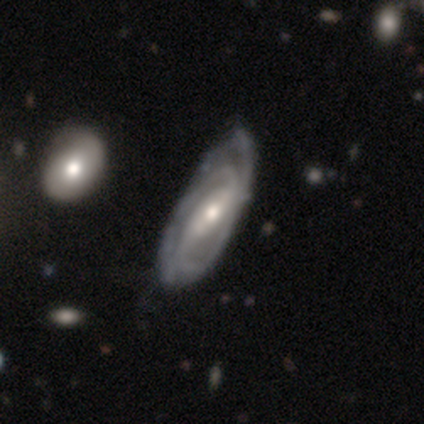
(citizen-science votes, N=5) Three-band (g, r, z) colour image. It shows a featured or disk galaxy (100%) with a strong bar (60%), 2 (80%) medium (80%) spiral arms (100%) and a moderate central bulge (60%). Merging: none (60%).